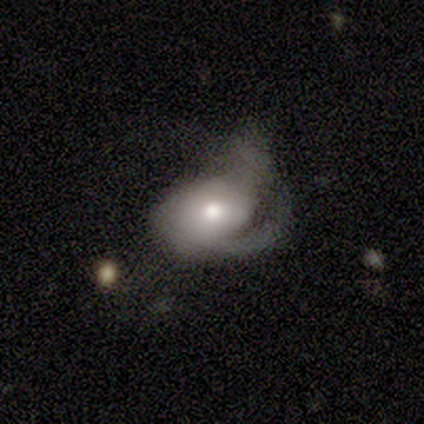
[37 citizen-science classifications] A featured or disk galaxy (59%) with no bar (81%), 1 (47%) medium (47%) spiral arms (81%) and a moderate central bulge (76%).

Vote fractions:
- Smooth or featured? featured or disk: 59% / smooth: 30% / star or artifact: 11%
- Edge-on disk? no: 95% / yes: 5%
- Bar? no: 81% / weak: 19% / strong: 0%
- Spiral arms? yes: 81% / no: 19%
- Spiral winding? medium: 47% / loose: 29% / tight: 24%
- Spiral arm count? 1: 47% / 2: 24% / 3: 18% / can't tell: 12% / 4: 0% / more than 4: 0%
- Bulge size? moderate: 76% / large: 10% / small: 10% / dominant: 5% / none: 0%
- Merging? major disturbance: 61% / minor disturbance: 21% / none: 18% / merger: 0%